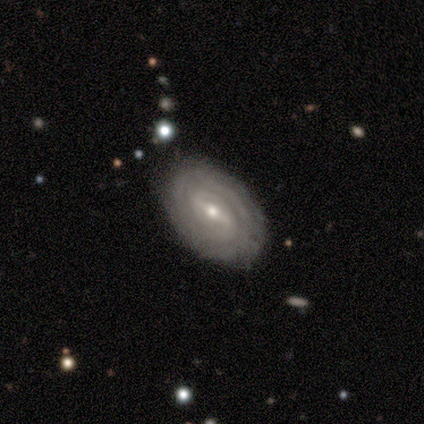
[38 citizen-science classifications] This is likely a featured or disk galaxy (76%). It is clearly not viewed edge-on (97%). Bar: possibly strong (50%). Spiral arm pattern: clearly yes (93%). Spiral arm count: possibly can't tell (46%). Spiral winding: clearly tight (85%). Central bulge: possibly moderate (54%). Merging: likely none (72%).